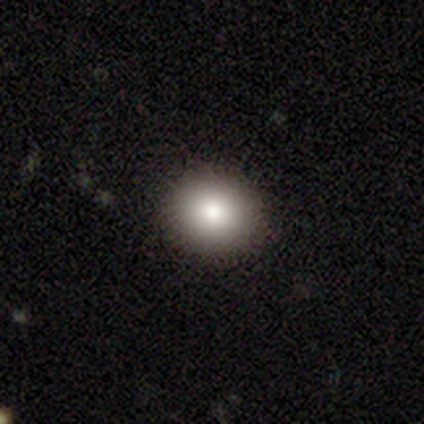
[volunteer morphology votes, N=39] Smooth or featured? smooth (87%)
How rounded? round (68%)
Merging? none (87%)